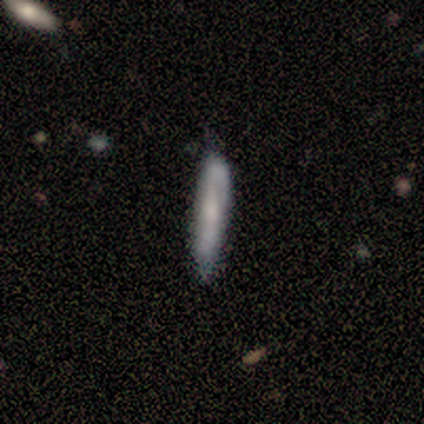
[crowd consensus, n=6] Smooth or featured? 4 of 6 (67%) said smooth. How rounded? 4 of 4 (100%) said cigar-shaped. Merging? 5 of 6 (83%) said none.